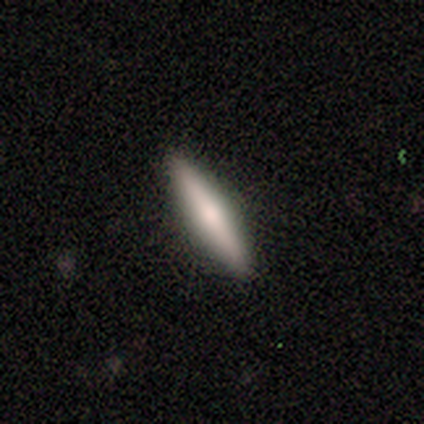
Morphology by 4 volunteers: This is clearly a smooth galaxy (100%). How rounded: likely cigar-shaped (75%). Merging: likely none (75%).